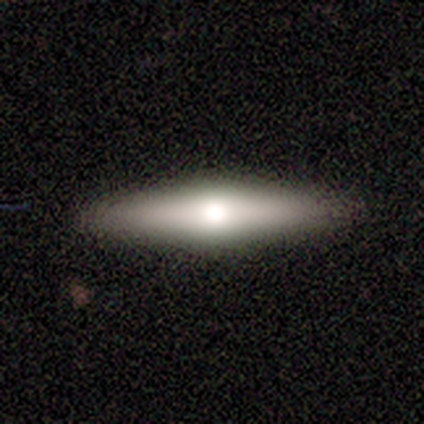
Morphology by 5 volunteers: Smooth or featured?
  - featured or disk: 60% *
  - smooth: 40%
  - star or artifact: 0%
Edge-on disk?
  - yes: 100% *
  - no: 0%
Edge-on bulge?
  - rounded: 100% *
  - boxy: 0%
  - none: 0%
Merging?
  - none: 100% *
  - minor disturbance: 0%
  - major disturbance: 0%
  - merger: 0%